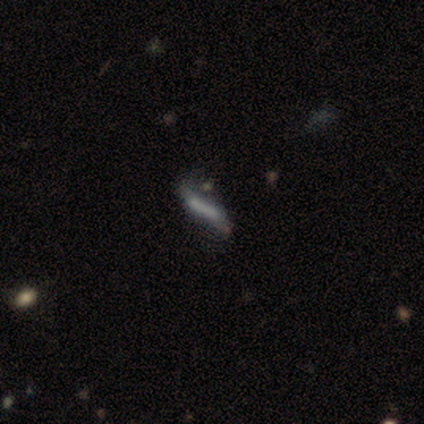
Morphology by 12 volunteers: A smooth galaxy with no disk features (58%) that is cigar-shaped (100%).

Vote fractions:
- Smooth or featured? smooth: 58% / featured or disk: 25% / star or artifact: 17%
- How rounded? cigar-shaped: 100% / round: 0% / in between: 0%
- Merging? none: 40% / major disturbance: 30% / merger: 20% / minor disturbance: 10%